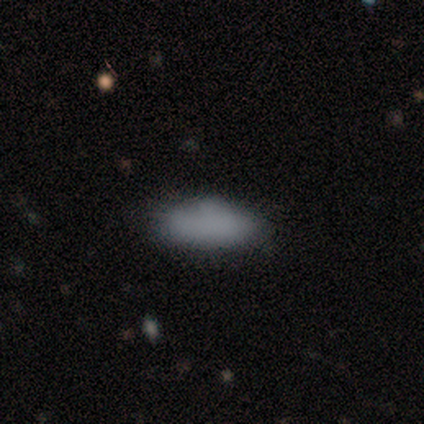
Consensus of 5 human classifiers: Q: Smooth or featured?
A: smooth (80%); runner-up: featured or disk (20%)
Q: How rounded?
A: in between (100%)
Q: Merging?
A: none (60%); runner-up: minor disturbance (40%)